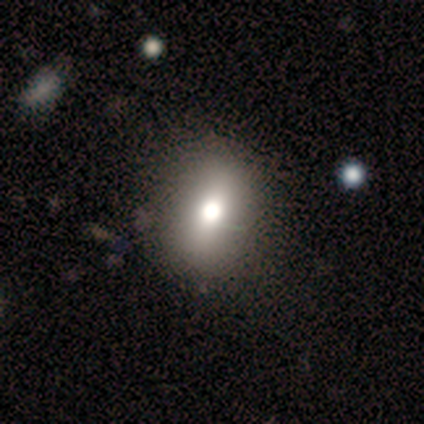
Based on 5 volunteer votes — This is clearly a smooth galaxy (100%). How rounded: clearly round (80%). Merging: marginally none (40%, tied with minor disturbance).